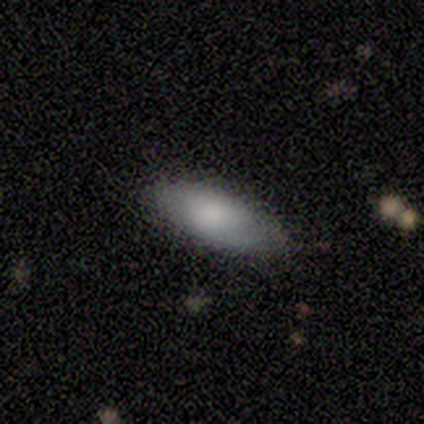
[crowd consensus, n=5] A smooth galaxy with no disk features (100%) that is in between round and cigar-shaped (100%). Merging: none (100%).